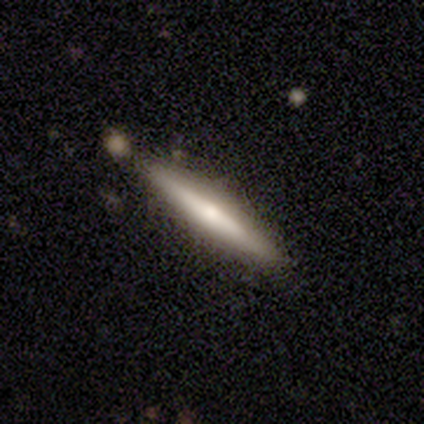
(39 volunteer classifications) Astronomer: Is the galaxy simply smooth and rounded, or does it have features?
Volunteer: featured or disk — 56% (runner-up: smooth, 41%).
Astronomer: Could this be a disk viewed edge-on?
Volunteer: yes — 100%.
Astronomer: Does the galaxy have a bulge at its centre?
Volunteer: rounded — 82%.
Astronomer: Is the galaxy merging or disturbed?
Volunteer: none — 87%.